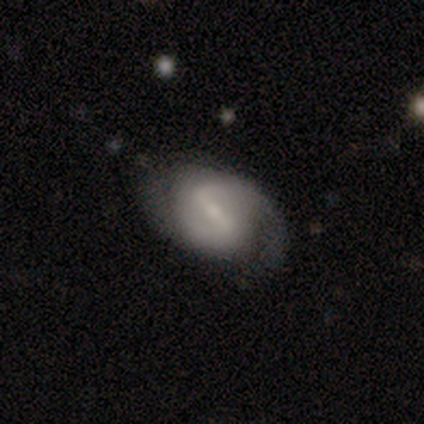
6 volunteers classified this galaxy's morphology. Smooth or featured? 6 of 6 (100%) said featured or disk. Edge-on disk? 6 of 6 (100%) said no. Bar? 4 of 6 (67%) said strong. Spiral arms? 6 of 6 (100%) said yes. Spiral winding? 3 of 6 (50%) said medium. Spiral arm count? 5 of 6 (83%) said 2. Bulge size? 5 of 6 (83%) said small. Merging? 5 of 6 (83%) said none.